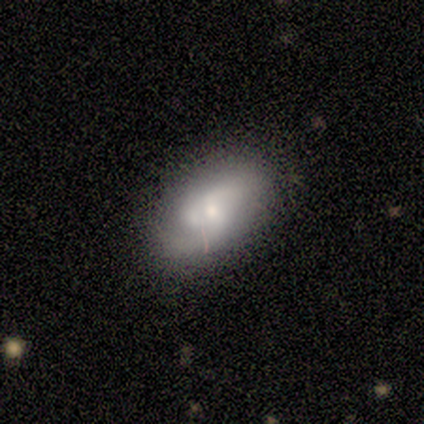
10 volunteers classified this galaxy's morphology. A featured or disk galaxy (70%) with a weak bar (71%), 2 (80%) medium (80%) spiral arms (71%) and a moderate central bulge (57%).

Vote fractions:
- Smooth or featured? featured or disk: 70% / smooth: 30% / star or artifact: 0%
- Edge-on disk? no: 100% / yes: 0%
- Bar? weak: 71% / no: 29% / strong: 0%
- Spiral arms? yes: 71% / no: 29%
- Spiral winding? medium: 80% / tight: 20% / loose: 0%
- Spiral arm count? 2: 80% / 1: 20% / 3: 0% / 4: 0% / more than 4: 0% / can't tell: 0%
- Bulge size? moderate: 57% / small: 43% / dominant: 0% / large: 0% / none: 0%
- Merging? none: 60% / minor disturbance: 40% / major disturbance: 0% / merger: 0%